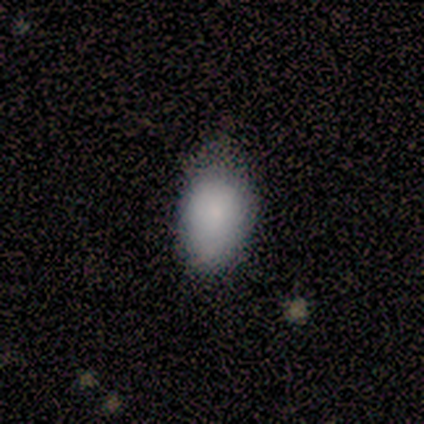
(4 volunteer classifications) Smooth or featured? 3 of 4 (75%) said smooth. How rounded? 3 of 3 (100%) said in between. Merging? 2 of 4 (50%, tied with minor disturbance) said none.